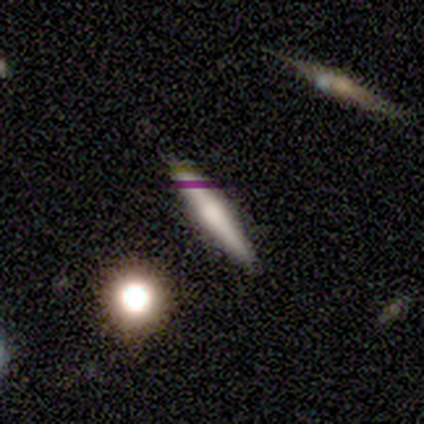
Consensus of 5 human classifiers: Volunteers were most divided on "how rounded": cigar-shaped: 75%, round: 25%, in between: 0%. More confident: merging — none (100%); smooth or featured — smooth (80%).